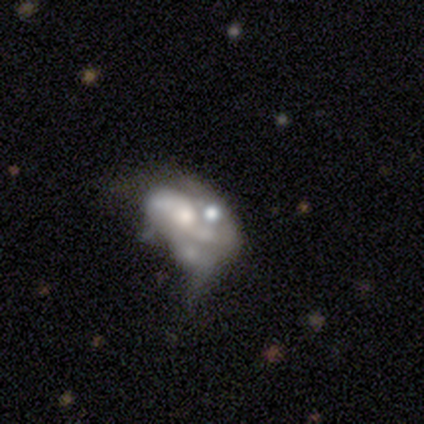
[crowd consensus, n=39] Volunteers were most divided on "merging": major disturbance: 33%, merger: 31%, minor disturbance: 22%, none: 14%. More confident: edge-on disk — no (100%); smooth or featured — featured or disk (74%); bar — no (72%); spiral arms — no (72%); bulge size — moderate (52%).